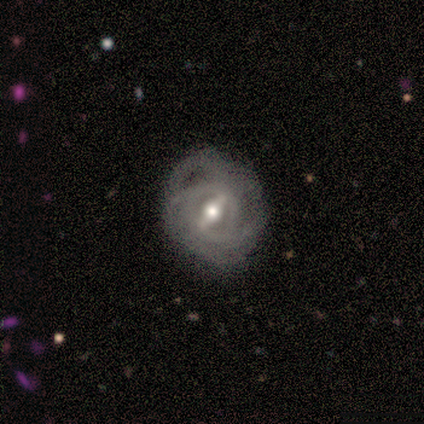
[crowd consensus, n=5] A featured or disk galaxy (100%) with a strong bar (80%), tight (50%, tied with medium) spiral arms (80%) and a moderate central bulge (100%).

Vote fractions:
- Smooth or featured? featured or disk: 100% / smooth: 0% / star or artifact: 0%
- Edge-on disk? no: 100% / yes: 0%
- Bar? strong: 80% / weak: 20% / no: 0%
- Spiral arms? yes: 80% / no: 20%
- Spiral winding? tight: 50% (tied) / medium: 50% (tied) / loose: 0%
- Spiral arm count? can't tell: 100% / 1: 0% / 2: 0% / 3: 0% / 4: 0% / more than 4: 0%
- Bulge size? moderate: 100% / dominant: 0% / large: 0% / small: 0% / none: 0%
- Merging? none: 80% / major disturbance: 20% / minor disturbance: 0% / merger: 0%